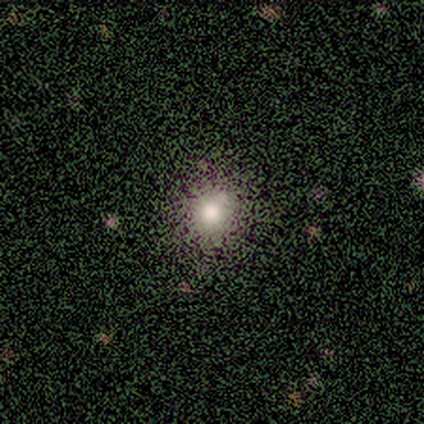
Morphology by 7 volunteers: smooth_or_featured: smooth (p=0.86) [alt: star or artifact p=0.14]
how_rounded: round (p=0.83) [alt: in between p=0.17]
merging: none (p=1.00)